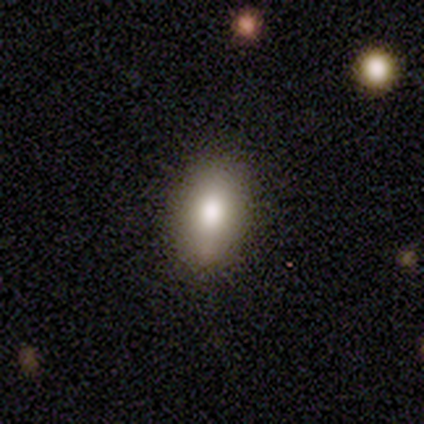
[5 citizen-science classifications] Smooth or featured? 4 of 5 (80%) said smooth. How rounded? 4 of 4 (100%) said in between. Merging? 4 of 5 (80%) said none.